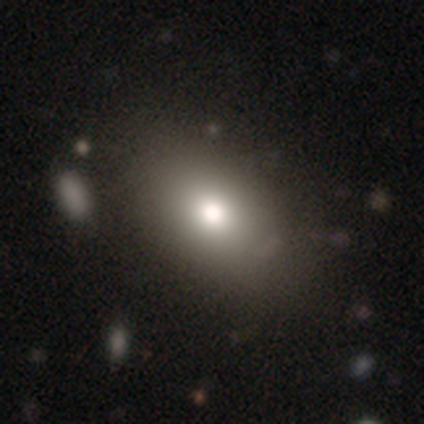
This is clearly a smooth galaxy (82%). How rounded: clearly in between (80%). Merging: marginally none (41%).